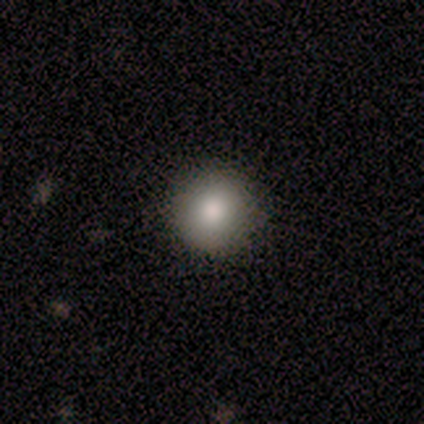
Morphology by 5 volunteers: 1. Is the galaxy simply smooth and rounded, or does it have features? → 100% smooth, 0% featured or disk, 0% star or artifact.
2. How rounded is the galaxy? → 100% round, 0% in between, 0% cigar-shaped.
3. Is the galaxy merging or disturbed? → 100% none, 0% minor disturbance, 0% major disturbance, 0% merger.